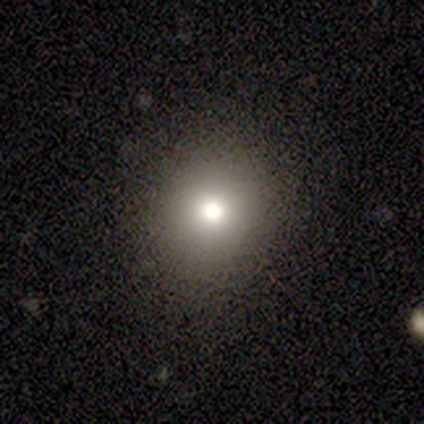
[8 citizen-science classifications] Overall: smooth (75%). How rounded: round (100%). Merging: none (100%).